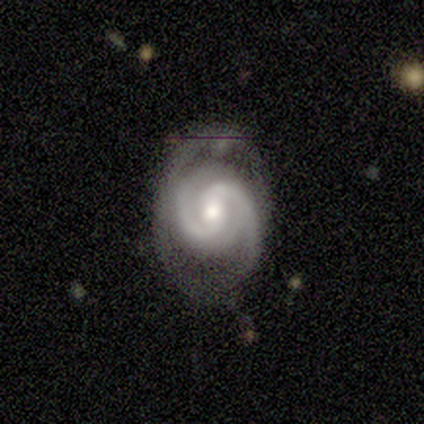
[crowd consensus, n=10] Overall: featured or disk (100%). Edge-on disk: no (100%). Bar: no (70%). Spiral arms: yes (100%). Spiral arm count: 2 (100%). Spiral winding: medium (70%). Bulge size: moderate (50%, tied with small). Merging: none (80%).